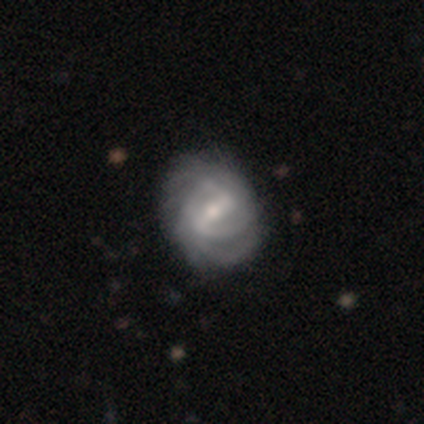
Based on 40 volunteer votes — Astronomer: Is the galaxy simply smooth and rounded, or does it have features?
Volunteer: featured or disk — 100%.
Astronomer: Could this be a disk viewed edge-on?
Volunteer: no — 100%.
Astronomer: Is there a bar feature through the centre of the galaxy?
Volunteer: strong — 57% (runner-up: weak, 40%).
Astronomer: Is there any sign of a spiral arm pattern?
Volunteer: yes — 95%.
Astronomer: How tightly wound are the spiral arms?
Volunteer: tight — 53% (runner-up: medium, 42%).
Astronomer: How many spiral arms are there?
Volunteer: can't tell — 50% (runner-up: 2, 29%).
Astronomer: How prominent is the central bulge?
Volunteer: moderate — 55% (runner-up: small, 42%).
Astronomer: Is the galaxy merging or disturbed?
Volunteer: none — 70%.